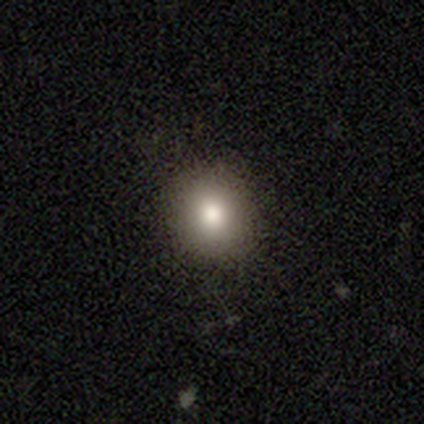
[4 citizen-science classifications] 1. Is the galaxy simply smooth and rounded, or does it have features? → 100% smooth, 0% featured or disk, 0% star or artifact.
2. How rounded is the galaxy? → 75% round, 25% in between, 0% cigar-shaped.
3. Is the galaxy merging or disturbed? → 100% none, 0% minor disturbance, 0% major disturbance, 0% merger.